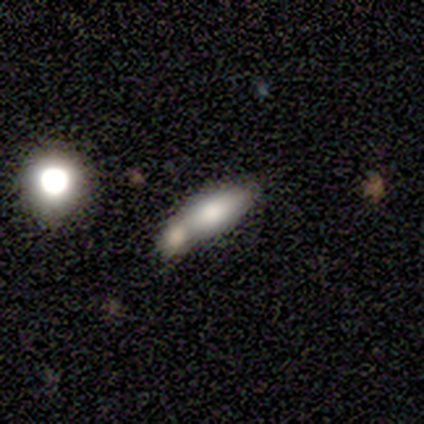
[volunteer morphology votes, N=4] smooth_or_featured: smooth (p=1.00)
how_rounded: in between (p=1.00)
merging: none (p=0.50) [tied with: merger p=0.50]